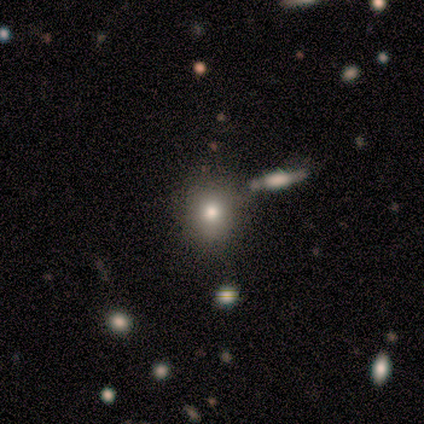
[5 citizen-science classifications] Smooth or featured? smooth (40%, tied with featured or disk)
How rounded? round (50%, tied with in between)
Merging? none (50%)